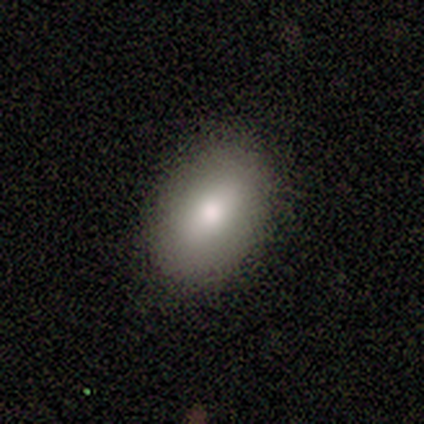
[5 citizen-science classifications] smooth 80%, featured or disk 20%, star or artifact 0%. Down the decision tree: how rounded — in between (100%); merging — none (100%).